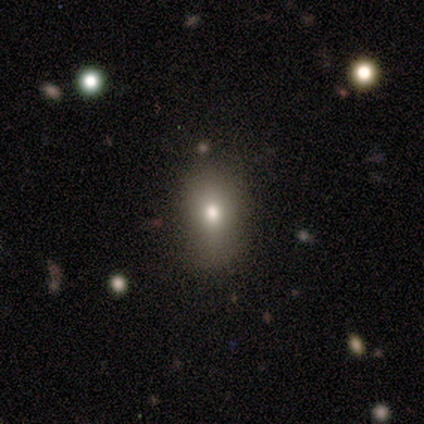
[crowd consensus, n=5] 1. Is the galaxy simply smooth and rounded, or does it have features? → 100% smooth, 0% featured or disk, 0% star or artifact.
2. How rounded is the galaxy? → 60% in between, 40% round, 0% cigar-shaped.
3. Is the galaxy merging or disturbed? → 80% none, 20% minor disturbance, 0% major disturbance, 0% merger.